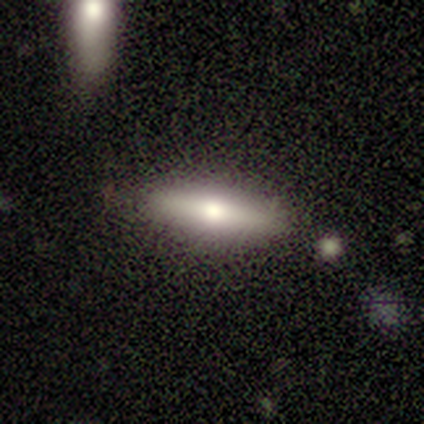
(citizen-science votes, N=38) Q: Smooth or featured?
A: smooth (71%); runner-up: featured or disk (29%)
Q: How rounded?
A: cigar-shaped (70%); runner-up: in between (30%)
Q: Merging?
A: none (87%); runner-up: minor disturbance (11%)